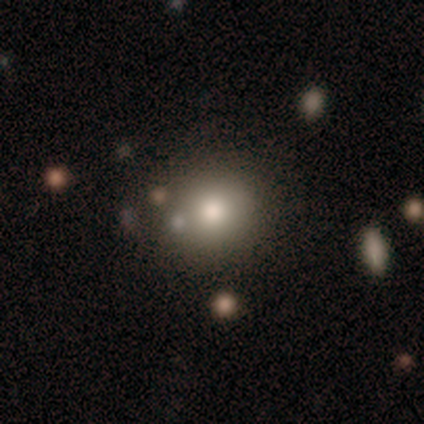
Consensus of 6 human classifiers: Smooth or featured: smooth — 83% (star or artifact — 17%)
How rounded: round — 100%
Merging: none — 80% (minor disturbance — 20%)